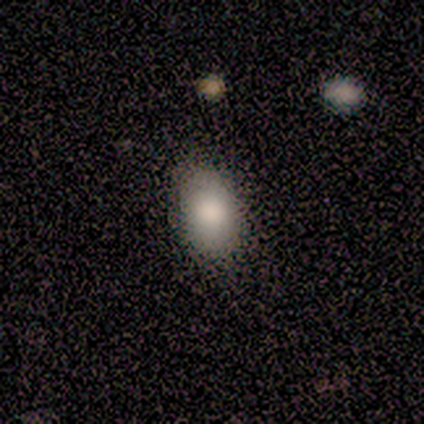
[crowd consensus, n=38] Morphology: type=smooth (95%); roundness=in between (86%); merging=none (54%).